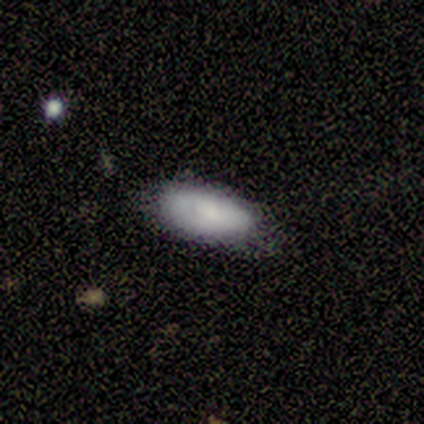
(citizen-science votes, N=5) Morphology: type=smooth (60%); roundness=in between (100%); merging=minor disturbance (60%).